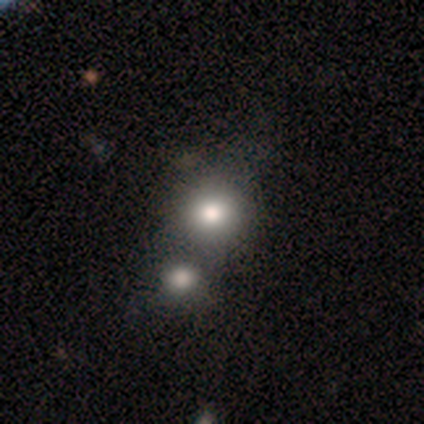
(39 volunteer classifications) Smooth or featured? smooth (74%)
How rounded? round (86%)
Merging? merger (57%)